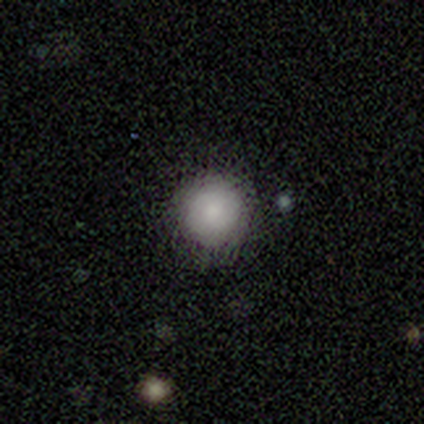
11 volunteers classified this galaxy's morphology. A smooth galaxy with no disk features (73%) that is round (100%).

Vote fractions:
- Smooth or featured? smooth: 73% / featured or disk: 18% / star or artifact: 9%
- How rounded? round: 100% / in between: 0% / cigar-shaped: 0%
- Merging? none: 90% / minor disturbance: 10% / major disturbance: 0% / merger: 0%